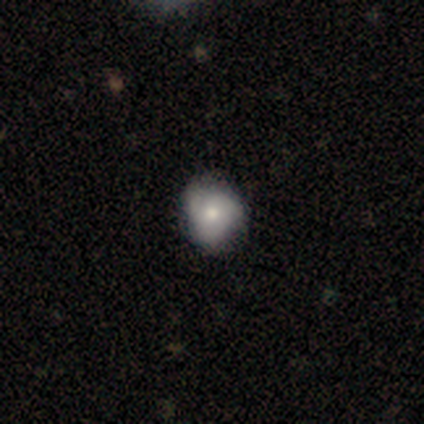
A smooth galaxy with no disk features (54%) that is round (71%). Merging: none (63%).